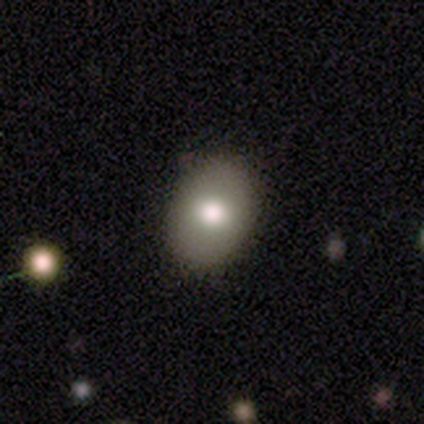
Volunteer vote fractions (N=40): smooth-or-featured: smooth: 65% | featured or disk: 20% | star or artifact: 15%
  how-rounded: in between: 85% | round: 15% | cigar-shaped: 0%
  merging: none: 82% | minor disturbance: 15% | major disturbance: 3% | merger: 0%